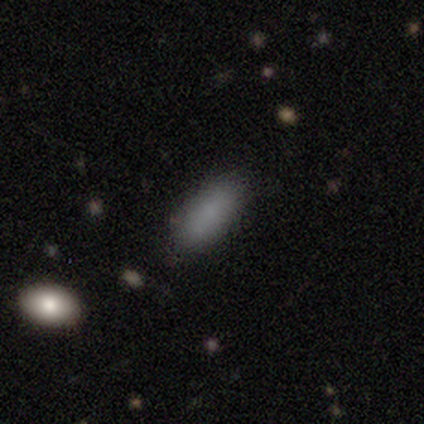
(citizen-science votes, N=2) This is clearly a star or artifact rather than a galaxy (100%).